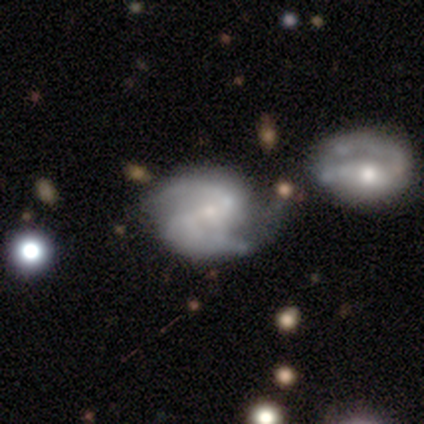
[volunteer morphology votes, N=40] Smooth or featured: featured or disk — 80% (star or artifact — 15%)
Edge-on disk: no — 100%
Bar: weak — 44% (strong — 31%)
Spiral arms: yes — 100%
Spiral winding: medium — 59% (loose — 34%)
Spiral arm count: 2 — 91% (can't tell — 6%)
Bulge size: small — 81% (moderate — 9%)
Merging: none — 26% (tied with merger — 26%)